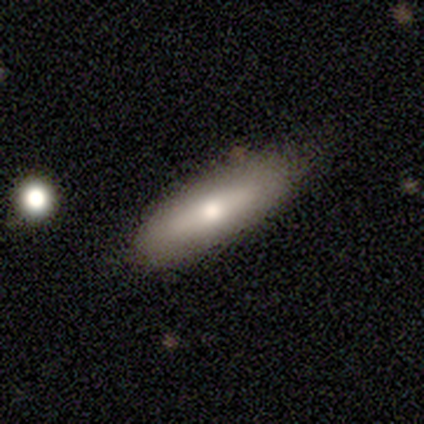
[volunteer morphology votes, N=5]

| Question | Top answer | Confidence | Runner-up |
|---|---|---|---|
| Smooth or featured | smooth | 40% | tied: featured or disk (40%) |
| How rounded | in between | 50% | tied: cigar-shaped (50%) |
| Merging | none | 100% | — |